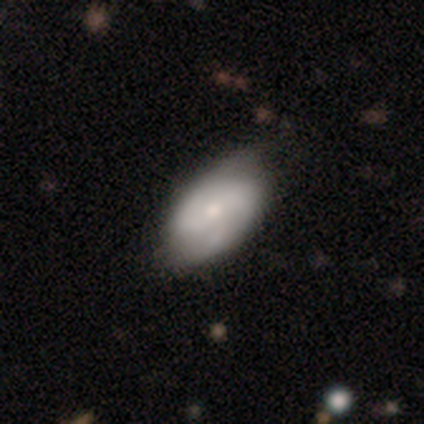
smooth_or_featured: featured or disk (p=0.83) [alt: smooth p=0.17]
disk_edge_on: no (p=1.00)
bar: weak (p=0.40) [tied with: no p=0.40]
has_spiral_arms: yes (p=1.00)
spiral_winding: medium (p=0.40) [tied with: loose p=0.40]
spiral_arm_count: 2 (p=0.80) [alt: 4 p=0.20]
bulge_size: small (p=0.60) [alt: moderate p=0.20]
merging: none (p=0.67) [alt: minor disturbance p=0.33]